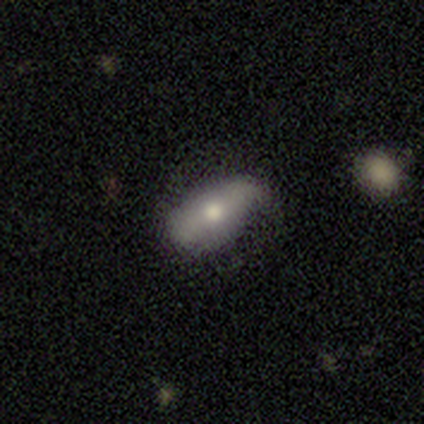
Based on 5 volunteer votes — Volunteers were most divided on "smooth or featured": smooth: 60%, featured or disk: 40%, star or artifact: 0%. More confident: how rounded — in between (100%); merging — none (60%).